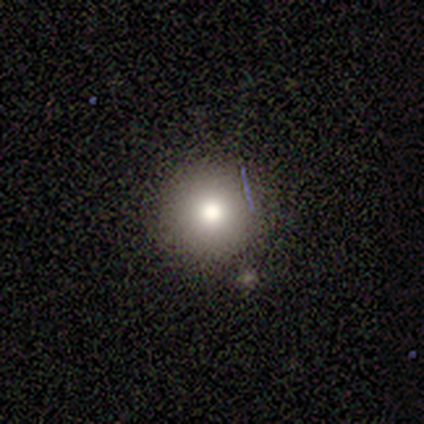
Consensus on every question: smooth or featured — smooth (100%); how rounded — round (100%); merging — none (100%).